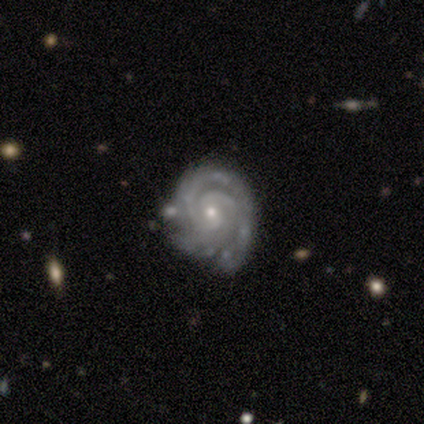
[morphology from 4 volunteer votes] Smooth or featured? 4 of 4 (100%) said featured or disk. Edge-on disk? 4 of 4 (100%) said no. Bar? 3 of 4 (75%) said weak. Spiral arms? 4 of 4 (100%) said yes. Spiral winding? 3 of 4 (75%) said tight. Spiral arm count? 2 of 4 (50%, tied with 3) said 2. Bulge size? 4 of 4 (100%) said small. Merging? 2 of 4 (50%) said none.